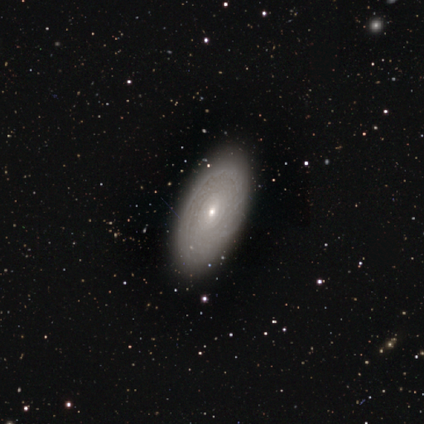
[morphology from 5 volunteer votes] Smooth or featured: featured or disk — 60% (smooth — 40%)
Edge-on disk: no — 100%
Bar: no — 100%
Spiral arms: yes — 100%
Spiral winding: tight — 67% (medium — 33%)
Spiral arm count: can't tell — 100%
Bulge size: moderate — 67% (small — 33%)
Merging: none — 80% (merger — 20%)